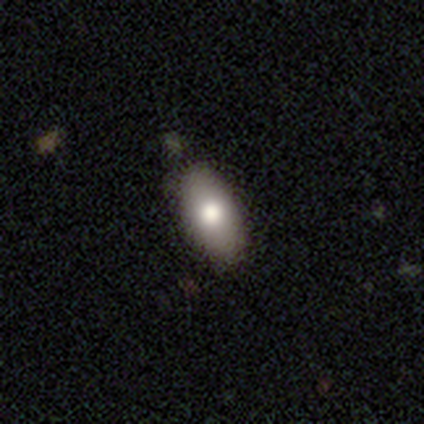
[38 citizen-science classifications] A smooth galaxy with no disk features (79%) that is in between round and cigar-shaped (97%). Merging: none (75%).